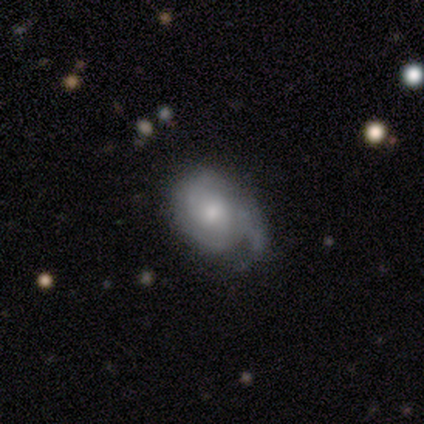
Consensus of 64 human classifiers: A featured or disk galaxy (69%) with no bar (76%), 2 (34%) tight (46%) spiral arms (83%) and a moderate central bulge (55%). Merging: none (47%).